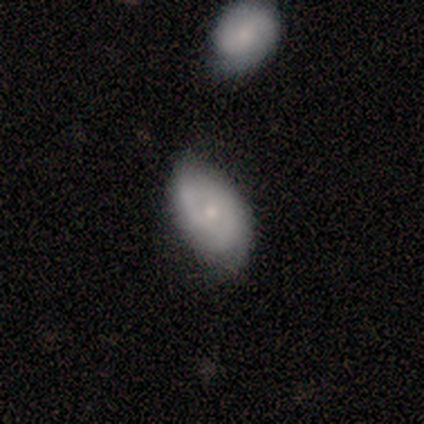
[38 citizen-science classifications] Overall: featured or disk (61%; smooth 34%). Edge-on disk: no (96%). Bar: no (73%). Spiral arms: yes (68%; no 32%). Spiral arm count: 2 (60%; can't tell 40%). Spiral winding: tight (40%, tied with loose). Bulge size: small (68%; moderate 32%). Merging: none (61%; minor disturbance 36%).